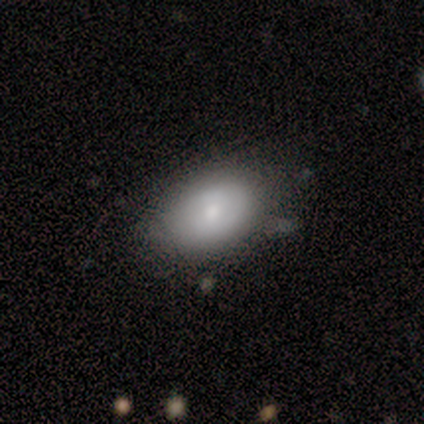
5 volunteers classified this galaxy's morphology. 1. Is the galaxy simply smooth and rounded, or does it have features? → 60% featured or disk, 40% smooth, 0% star or artifact.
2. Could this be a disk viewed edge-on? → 67% no, 33% yes.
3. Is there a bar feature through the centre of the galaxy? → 50% weak (tied), 50% no (tied), 0% strong.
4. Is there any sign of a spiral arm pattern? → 100% no, 0% yes.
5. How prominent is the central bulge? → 50% moderate (tied), 50% small (tied), 0% dominant, 0% large, 0% none.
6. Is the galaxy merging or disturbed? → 40% none (tied), 40% minor disturbance (tied), 20% major disturbance, 0% merger.